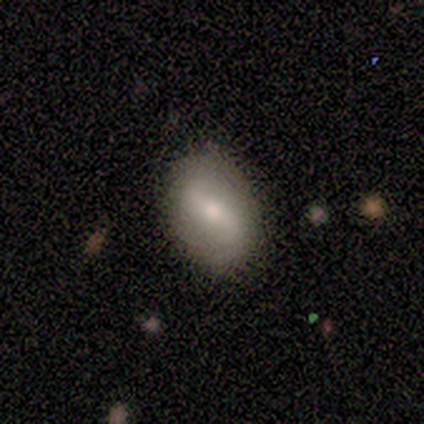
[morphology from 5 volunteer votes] Smooth or featured? featured or disk (80%)
Edge-on disk? no (100%)
Bar? no (50%)
Spiral arms? yes (75%)
Spiral winding? loose (100%)
Spiral arm count? 2 (100%)
Bulge size? moderate (50%, tied with small)
Merging? none (100%)